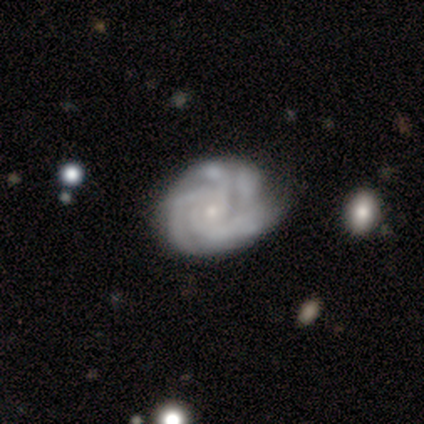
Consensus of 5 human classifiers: A featured or disk galaxy (80%) with no bar (100%), 2 (25%, tied with 3, 4 and can't tell) tight (100%) spiral arms (100%) and a small central bulge (100%). Merging: none (60%).